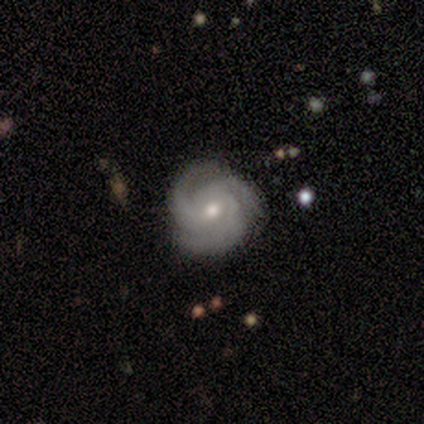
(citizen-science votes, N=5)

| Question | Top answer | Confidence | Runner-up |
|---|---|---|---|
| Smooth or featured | featured or disk | 80% | smooth (20%) |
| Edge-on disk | no | 100% | — |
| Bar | no | 100% | — |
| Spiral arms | yes | 100% | — |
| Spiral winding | medium | 50% | tight (25%) |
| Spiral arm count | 3 | 100% | — |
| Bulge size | moderate | 75% | small (25%) |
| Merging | none | 80% | major disturbance (20%) |